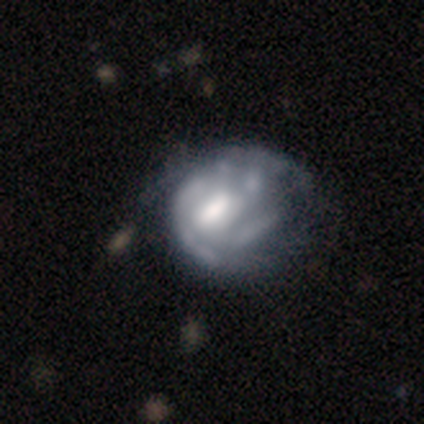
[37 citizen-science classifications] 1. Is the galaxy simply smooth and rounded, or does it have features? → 78% featured or disk, 22% smooth, 0% star or artifact.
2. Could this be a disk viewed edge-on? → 100% no, 0% yes.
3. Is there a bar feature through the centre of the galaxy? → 48% no, 38% weak, 14% strong.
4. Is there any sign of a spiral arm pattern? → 52% yes, 48% no.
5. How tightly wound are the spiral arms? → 47% medium, 27% tight, 27% loose.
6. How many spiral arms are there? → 47% can't tell, 13% 1, 13% 2, 13% 3, 13% 4, 0% more than 4.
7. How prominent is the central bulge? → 55% moderate, 24% large, 14% small, 7% none, 0% dominant.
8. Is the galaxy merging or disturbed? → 38% minor disturbance, 32% none, 27% major disturbance, 3% merger.